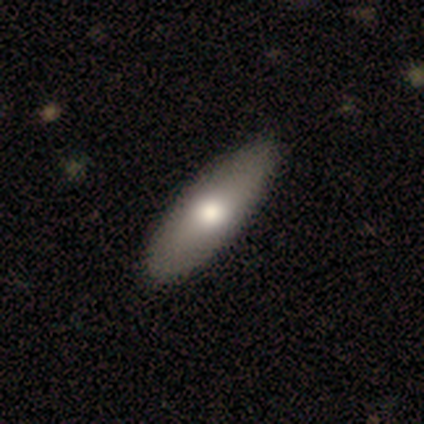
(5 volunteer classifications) This appears to be a smooth galaxy with no disk features (100%) that is in between round and cigar-shaped (80%). Merging: none (100%).